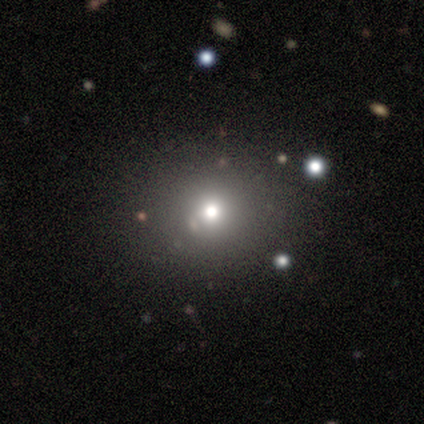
Volunteers were most divided on "smooth or featured": smooth: 65%, star or artifact: 28%, featured or disk: 7%. More confident: merging — none (84%); how rounded — round (82%).